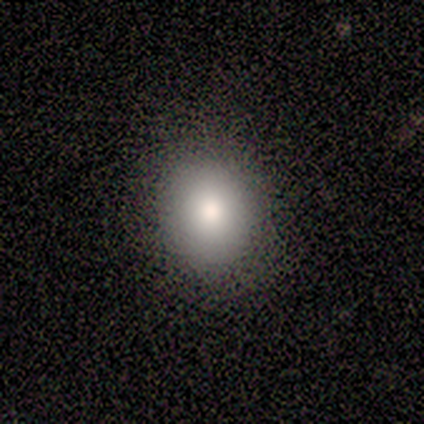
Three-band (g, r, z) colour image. It shows a smooth galaxy with no disk features (80%) that is round (75%). Merging: none (80%).